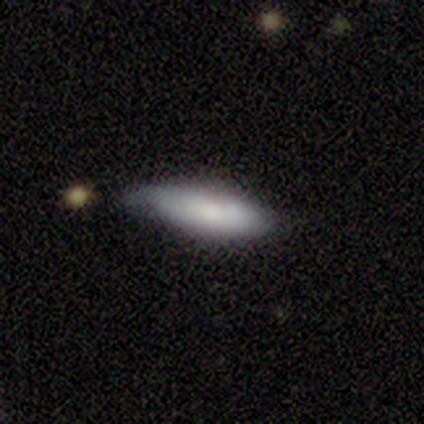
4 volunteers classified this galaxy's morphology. A smooth galaxy with no disk features (75%) that is in between round and cigar-shaped (67%).

Vote fractions:
- Smooth or featured? smooth: 75% / featured or disk: 25% / star or artifact: 0%
- How rounded? in between: 67% / cigar-shaped: 33% / round: 0%
- Merging? none: 75% / minor disturbance: 25% / major disturbance: 0% / merger: 0%